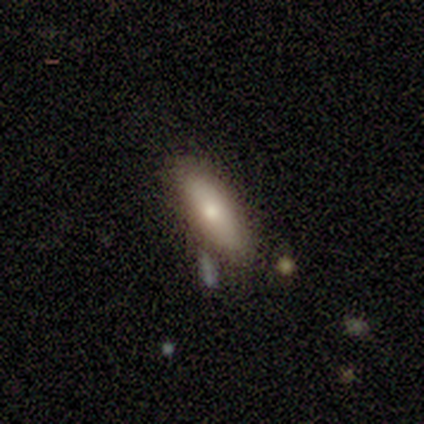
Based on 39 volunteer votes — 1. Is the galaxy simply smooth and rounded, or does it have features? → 90% smooth, 8% featured or disk, 3% star or artifact.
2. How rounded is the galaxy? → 60% in between, 40% cigar-shaped, 0% round.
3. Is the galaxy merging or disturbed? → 79% none, 13% minor disturbance, 5% merger, 3% major disturbance.